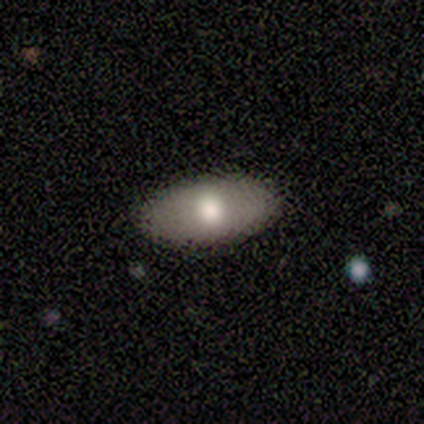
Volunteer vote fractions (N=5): Smooth or featured? 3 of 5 (60%) said featured or disk. Edge-on disk? 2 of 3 (67%) said no. Bar? 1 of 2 (50%, tied with no) said weak. Spiral arms? 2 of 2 (100%) said no. Bulge size? 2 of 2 (100%) said moderate. Merging? 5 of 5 (100%) said none.